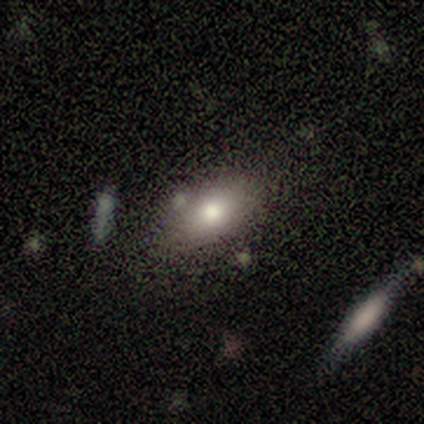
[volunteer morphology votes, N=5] smooth 100%, featured or disk 0%, star or artifact 0%. Down the decision tree: how rounded — in between (80%); merging — none (100%).